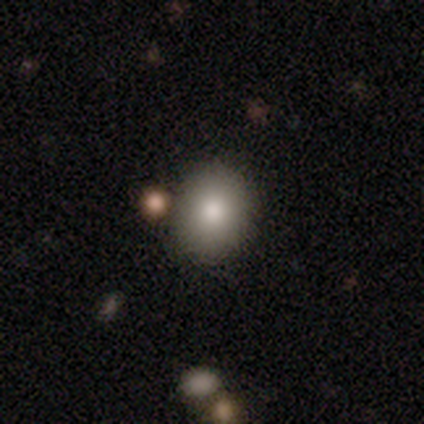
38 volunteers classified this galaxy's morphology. A smooth galaxy with no disk features (87%) that is round (64%).

Vote fractions:
- Smooth or featured? smooth: 87% / featured or disk: 13% / star or artifact: 0%
- How rounded? round: 64% / in between: 36% / cigar-shaped: 0%
- Merging? none: 84% / minor disturbance: 8% / merger: 5% / major disturbance: 3%